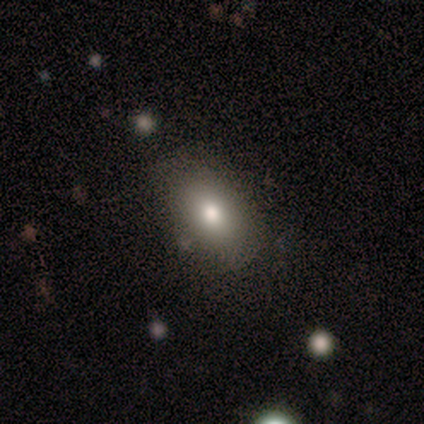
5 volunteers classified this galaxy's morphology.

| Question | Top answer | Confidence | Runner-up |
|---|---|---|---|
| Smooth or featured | smooth | 80% | featured or disk (20%) |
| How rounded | in between | 100% | — |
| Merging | none | 60% | minor disturbance (40%) |